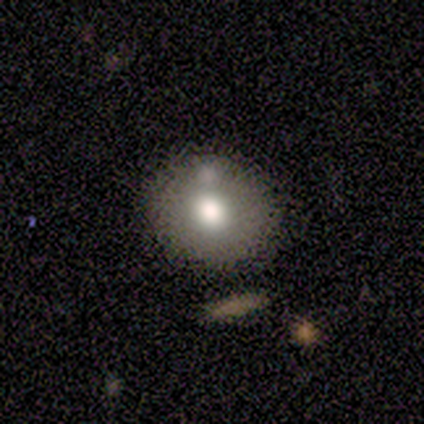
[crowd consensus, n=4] Smooth or featured? smooth (75%)
How rounded? in between (67%)
Merging? none (67%)